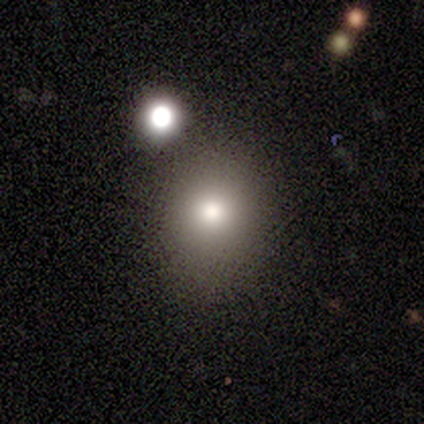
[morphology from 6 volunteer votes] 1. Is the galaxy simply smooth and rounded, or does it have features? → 100% smooth, 0% featured or disk, 0% star or artifact.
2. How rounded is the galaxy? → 67% round, 33% in between, 0% cigar-shaped.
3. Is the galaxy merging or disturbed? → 100% none, 0% minor disturbance, 0% major disturbance, 0% merger.